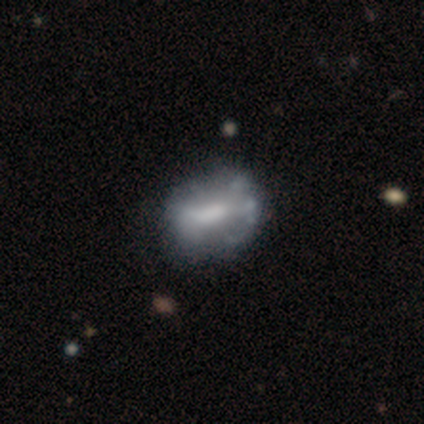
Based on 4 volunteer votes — smooth-or-featured: smooth: 75% | featured or disk: 25% | star or artifact: 0%
  how-rounded: round: 33% (tied) | in between: 33% (tied) | cigar-shaped: 33% (tied)
  merging: none: 100% | minor disturbance: 0% | major disturbance: 0% | merger: 0%